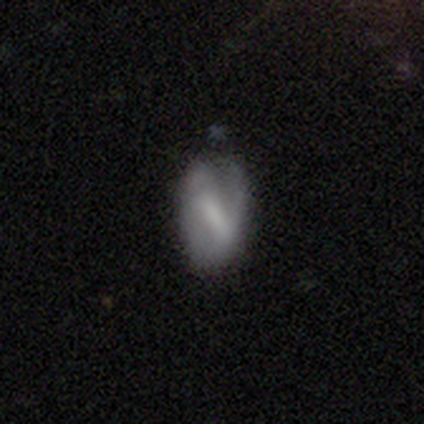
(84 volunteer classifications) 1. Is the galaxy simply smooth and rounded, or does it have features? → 57% featured or disk, 37% smooth, 6% star or artifact.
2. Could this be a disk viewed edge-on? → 92% no, 8% yes.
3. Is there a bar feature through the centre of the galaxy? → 55% strong, 43% weak, 2% no.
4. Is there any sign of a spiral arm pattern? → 57% yes, 43% no.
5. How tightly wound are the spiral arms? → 44% medium, 36% loose, 20% tight.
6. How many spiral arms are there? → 60% 1, 28% 2, 8% can't tell, 4% 3, 0% 4, 0% more than 4.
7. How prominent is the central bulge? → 36% none, 32% small, 20% moderate, 9% large, 2% dominant.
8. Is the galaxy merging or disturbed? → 44% none, 38% minor disturbance, 14% major disturbance, 4% merger.